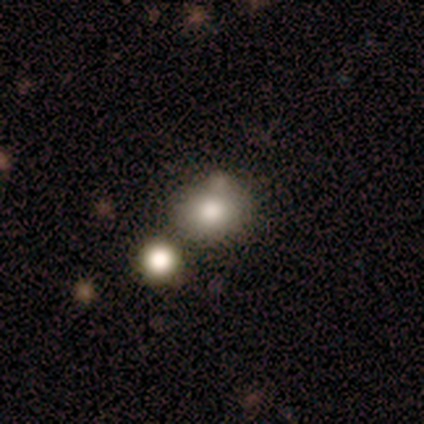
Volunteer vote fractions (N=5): Morphology: type=smooth (100%); roundness=round (60%); merging=merger (80%).